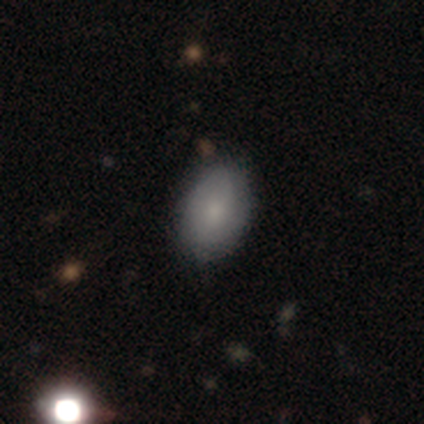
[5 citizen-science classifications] Overall: smooth (100%). How rounded: in between (80%). Merging: none (80%).